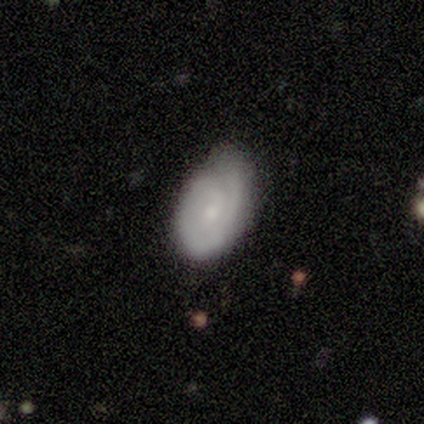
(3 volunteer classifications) Morphology: type=featured or disk (67%); edge-on=no (100%); bar=weak (50%, tied with no); spiral arms=yes (100%); winding=tight (100%); arm count=2 (50%, tied with can't tell); bulge=small (100%); merging=none (67%).